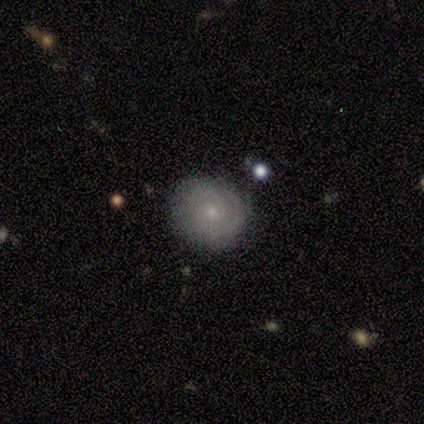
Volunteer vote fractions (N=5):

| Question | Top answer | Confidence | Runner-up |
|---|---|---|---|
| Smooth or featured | featured or disk | 80% | smooth (20%) |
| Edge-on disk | no | 100% | — |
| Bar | no | 100% | — |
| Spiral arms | yes | 50% | tied: no (50%) |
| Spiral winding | tight | 50% | tied: medium (50%) |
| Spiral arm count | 2 | 50% | tied: can't tell (50%) |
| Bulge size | moderate | 50% | tied: small (50%) |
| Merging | none | 60% | minor disturbance (40%) |